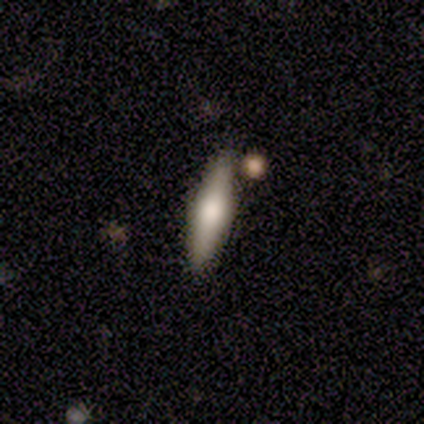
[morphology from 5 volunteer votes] type=featured or disk (60%); edge-on=yes (100%); edge-on bulge=rounded (100%); merging=none (100%).